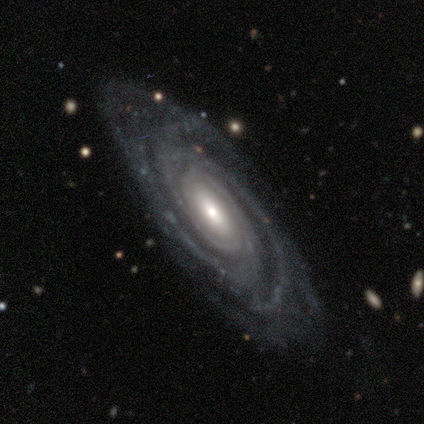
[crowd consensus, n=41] A featured or disk galaxy (93%) with no bar (47%), 3 (44%) tight (75%) spiral arms (100%) and a moderate central bulge (50%).

Vote fractions:
- Smooth or featured? featured or disk: 93% / star or artifact: 5% / smooth: 2%
- Edge-on disk? no: 95% / yes: 5%
- Bar? no: 47% / weak: 33% / strong: 19%
- Spiral arms? yes: 100% / no: 0%
- Spiral winding? tight: 75% / medium: 22% / loose: 3%
- Spiral arm count? 3: 44% / can't tell: 19% / 4: 17% / 2: 14% / more than 4: 6% / 1: 0%
- Bulge size? moderate: 50% / small: 36% / large: 14% / dominant: 0% / none: 0%
- Merging? none: 77% / minor disturbance: 15% / major disturbance: 5% / merger: 3%